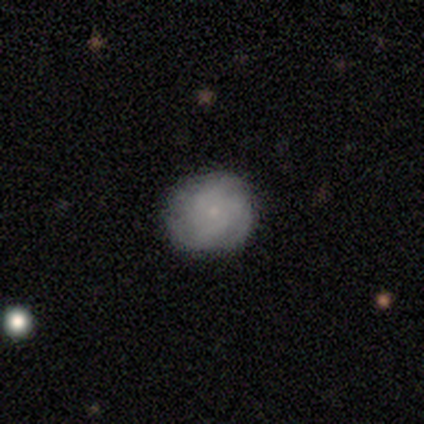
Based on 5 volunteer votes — Smooth or featured? 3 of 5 (60%) said featured or disk. Edge-on disk? 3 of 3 (100%) said no. Bar? 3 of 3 (100%) said no. Spiral arms? 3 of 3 (100%) said yes. Spiral winding? 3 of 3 (100%) said tight. Spiral arm count? 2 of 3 (67%) said 3. Bulge size? 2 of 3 (67%) said small. Merging? 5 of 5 (100%) said none.